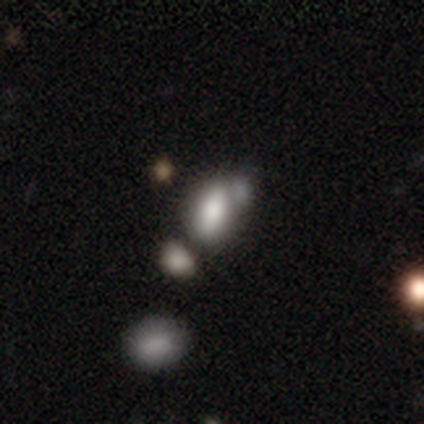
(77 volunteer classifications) Smooth or featured? smooth (78%)
How rounded? in between (92%)
Merging? merger (52%)